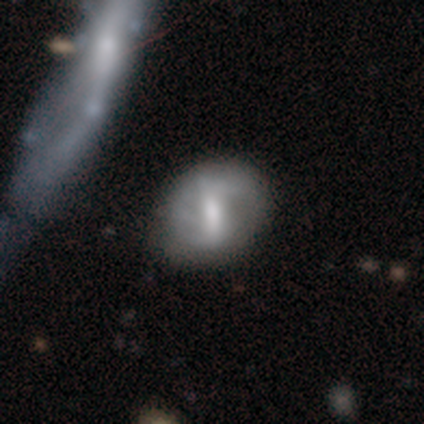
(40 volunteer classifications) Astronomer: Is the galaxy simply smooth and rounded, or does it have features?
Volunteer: featured or disk — 70%.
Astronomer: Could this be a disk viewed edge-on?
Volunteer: no — 93%.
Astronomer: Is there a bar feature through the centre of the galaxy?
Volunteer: strong — 58% (runner-up: weak, 35%).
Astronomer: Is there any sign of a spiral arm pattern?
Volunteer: yes — 69%.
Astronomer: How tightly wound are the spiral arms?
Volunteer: medium — 44%, tied with loose at 44%.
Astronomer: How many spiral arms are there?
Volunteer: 2 — 72%.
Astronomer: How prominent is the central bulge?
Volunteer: moderate — 50% (runner-up: small, 27%).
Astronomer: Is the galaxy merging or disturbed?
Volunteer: none — 46%.